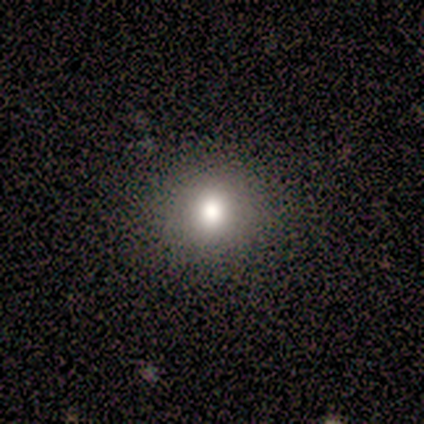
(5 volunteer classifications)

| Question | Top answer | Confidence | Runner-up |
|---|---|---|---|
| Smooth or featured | smooth | 100% | — |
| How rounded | round | 80% | in between (20%) |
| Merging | none | 100% | — |